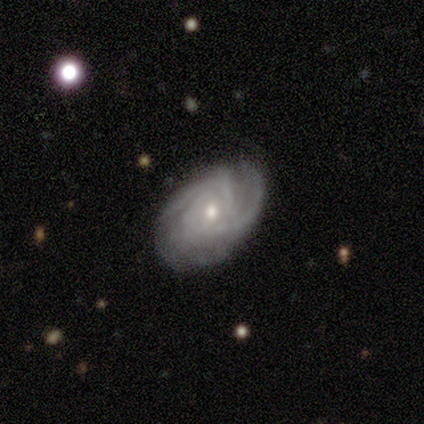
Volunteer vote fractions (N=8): A featured or disk galaxy (88%) with no bar (86%), 2 (57%) tight (57%) spiral arms (100%) and a small central bulge (71%).

Vote fractions:
- Smooth or featured? featured or disk: 88% / smooth: 12% / star or artifact: 0%
- Edge-on disk? no: 100% / yes: 0%
- Bar? no: 86% / weak: 14% / strong: 0%
- Spiral arms? yes: 100% / no: 0%
- Spiral winding? tight: 57% / medium: 43% / loose: 0%
- Spiral arm count? 2: 57% / can't tell: 43% / 1: 0% / 3: 0% / 4: 0% / more than 4: 0%
- Bulge size? small: 71% / moderate: 29% / dominant: 0% / large: 0% / none: 0%
- Merging? none: 50% / minor disturbance: 25% / major disturbance: 12% / merger: 12%